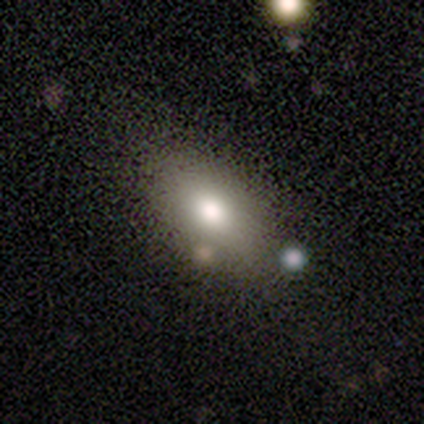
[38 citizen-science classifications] smooth-or-featured: smooth: 76% | star or artifact: 16% | featured or disk: 8%
  how-rounded: in between: 83% | round: 10% | cigar-shaped: 7%
  merging: none: 75% | minor disturbance: 19% | major disturbance: 6% | merger: 0%